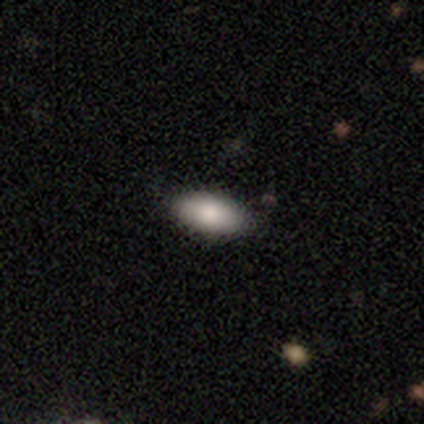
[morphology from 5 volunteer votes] Smooth or featured?
  - smooth: 80% *
  - star or artifact: 20%
  - featured or disk: 0%
How rounded?
  - in between: 100% *
  - round: 0%
  - cigar-shaped: 0%
Merging?
  - none: 75% *
  - minor disturbance: 25%
  - major disturbance: 0%
  - merger: 0%